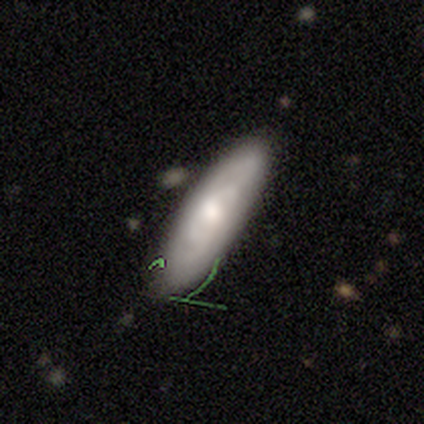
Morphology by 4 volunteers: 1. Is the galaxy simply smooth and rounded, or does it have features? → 75% featured or disk, 25% star or artifact, 0% smooth.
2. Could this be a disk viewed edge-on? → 100% no, 0% yes.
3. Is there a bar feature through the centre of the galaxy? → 67% no, 33% strong, 0% weak.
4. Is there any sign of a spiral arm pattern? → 67% yes, 33% no.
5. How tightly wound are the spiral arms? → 50% tight (tied), 50% loose (tied), 0% medium.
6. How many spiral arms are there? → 50% 1 (tied), 50% 2 (tied), 0% 3, 0% 4, 0% more than 4, 0% can't tell.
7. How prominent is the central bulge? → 67% small, 33% moderate, 0% dominant, 0% large, 0% none.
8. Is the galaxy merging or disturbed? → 67% none, 33% minor disturbance, 0% major disturbance, 0% merger.